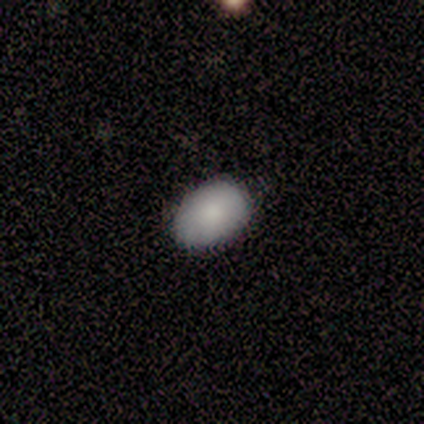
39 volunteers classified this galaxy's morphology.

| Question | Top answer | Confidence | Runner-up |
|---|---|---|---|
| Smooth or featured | smooth | 82% | featured or disk (10%) |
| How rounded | in between | 97% | round (3%) |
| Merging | none | 89% | minor disturbance (8%) |